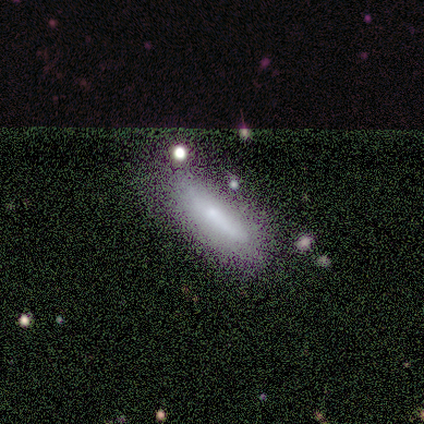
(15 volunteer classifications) A featured or disk galaxy (40%) with a strong bar (50%, tied with no), no spiral arms (100%) and a moderate central bulge (50%, tied with small).

Vote fractions:
- Smooth or featured? featured or disk: 40% / smooth: 33% / star or artifact: 27%
- Edge-on disk? no: 67% / yes: 33%
- Bar? strong: 50% (tied) / no: 50% (tied) / weak: 0%
- Spiral arms? no: 100% / yes: 0%
- Bulge size? moderate: 50% (tied) / small: 50% (tied) / dominant: 0% / large: 0% / none: 0%
- Merging? none: 73% / minor disturbance: 18% / major disturbance: 9% / merger: 0%